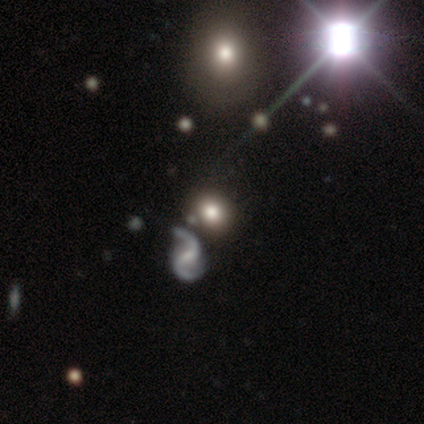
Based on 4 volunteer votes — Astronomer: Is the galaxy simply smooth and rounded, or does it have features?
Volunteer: star or artifact — 75%.